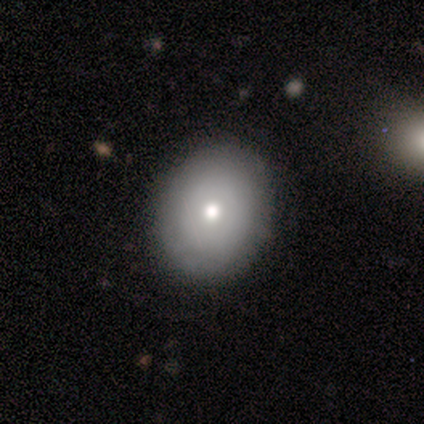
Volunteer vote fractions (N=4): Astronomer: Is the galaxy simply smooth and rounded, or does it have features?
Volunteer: smooth — 75%.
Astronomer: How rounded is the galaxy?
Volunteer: in between — 67%.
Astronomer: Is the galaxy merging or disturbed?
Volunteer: none — 75%.